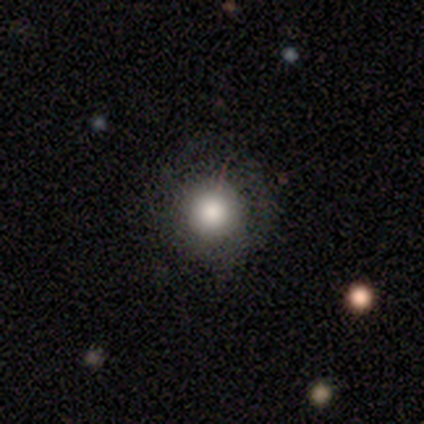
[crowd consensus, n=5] Smooth or featured? smooth (60%)
How rounded? round (100%)
Merging? none (67%)